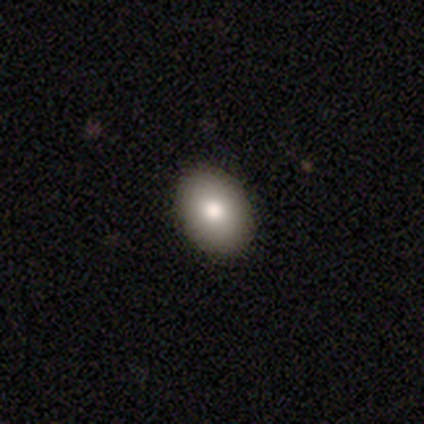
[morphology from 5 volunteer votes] This is clearly a smooth galaxy (80%). How rounded: possibly round (50%, tied with in between). Merging: clearly none (100%).